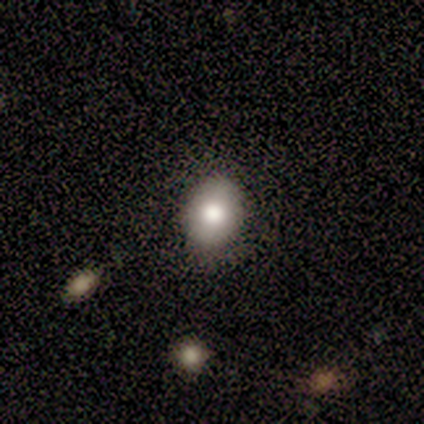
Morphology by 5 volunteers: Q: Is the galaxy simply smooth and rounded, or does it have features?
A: smooth — 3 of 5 (60%).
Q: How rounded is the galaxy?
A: round — 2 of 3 (67%).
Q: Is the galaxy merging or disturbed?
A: none — 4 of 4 (100%).